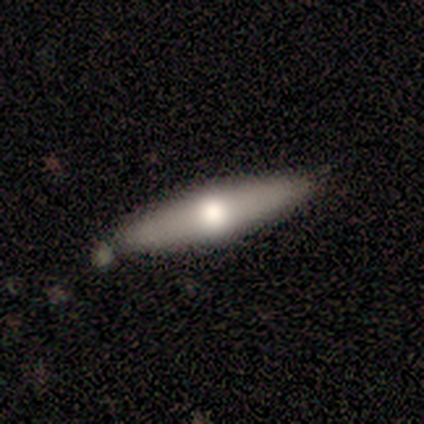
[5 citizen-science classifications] Q: Smooth or featured?
A: featured or disk (60%); runner-up: smooth (40%)
Q: Edge-on disk?
A: no (67%); runner-up: yes (33%)
Q: Bar?
A: no (100%)
Q: Spiral arms?
A: no (100%)
Q: Bulge size?
A: moderate (50%); tied with: small (50%)
Q: Merging?
A: none (80%); runner-up: merger (20%)